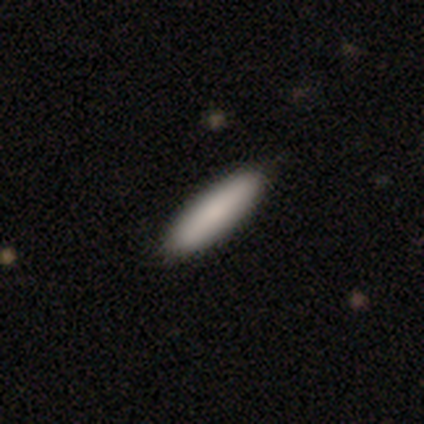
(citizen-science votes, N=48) Volunteers were most divided on "how rounded": cigar-shaped: 85%, in between: 15%, round: 0%. More confident: smooth or featured — smooth (85%); merging — none (85%).